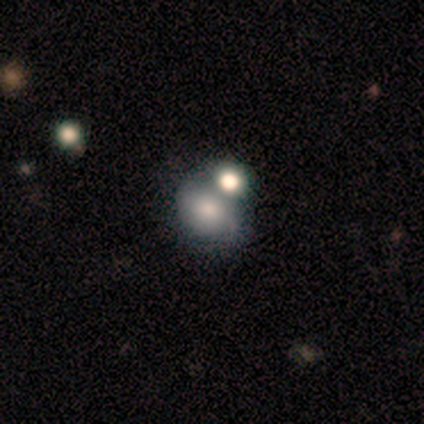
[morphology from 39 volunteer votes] Smooth or featured? 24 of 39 (62%) said smooth. How rounded? 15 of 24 (62%) said in between. Merging? 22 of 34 (65%) said merger.